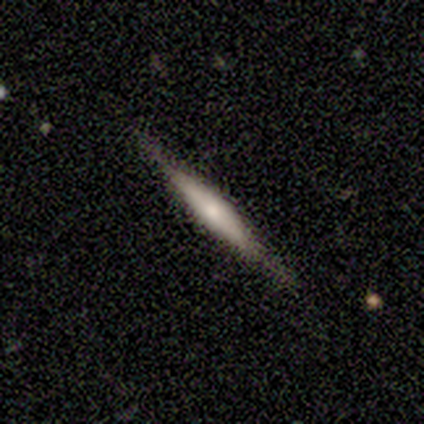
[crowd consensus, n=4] smooth 50% (tied), featured or disk 50% (tied), star or artifact 0%. Down the decision tree: how rounded — cigar-shaped (100%); merging — none (100%).